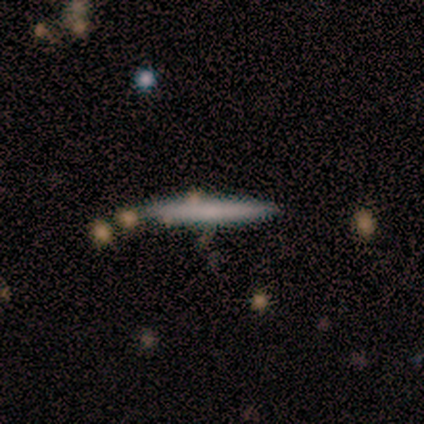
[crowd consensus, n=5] smooth_or_featured: smooth (p=0.80) [alt: star or artifact p=0.20]
how_rounded: cigar-shaped (p=1.00)
merging: none (p=1.00)